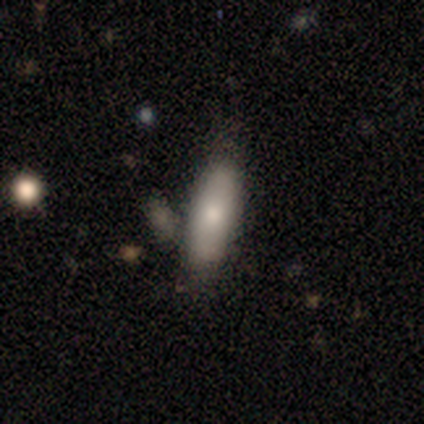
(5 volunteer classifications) smooth-or-featured: smooth: 100% | featured or disk: 0% | star or artifact: 0%
  how-rounded: in between: 80% | cigar-shaped: 20% | round: 0%
  merging: none: 80% | merger: 20% | minor disturbance: 0% | major disturbance: 0%